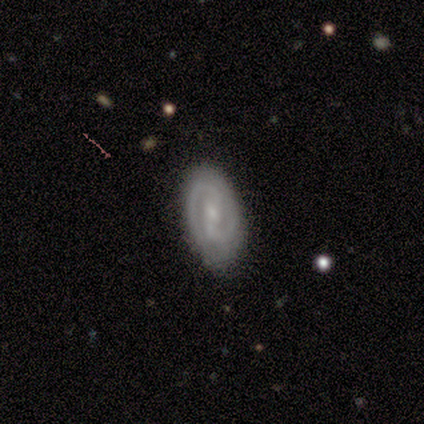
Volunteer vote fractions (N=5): A featured or disk galaxy (80%) with a weak bar (50%), 2 (100%) tight (75%) spiral arms (100%) and a small central bulge (50%).

Vote fractions:
- Smooth or featured? featured or disk: 80% / star or artifact: 20% / smooth: 0%
- Edge-on disk? no: 100% / yes: 0%
- Bar? weak: 50% / strong: 25% / no: 25%
- Spiral arms? yes: 100% / no: 0%
- Spiral winding? tight: 75% / medium: 25% / loose: 0%
- Spiral arm count? 2: 100% / 1: 0% / 3: 0% / 4: 0% / more than 4: 0% / can't tell: 0%
- Bulge size? small: 50% / moderate: 25% / none: 25% / dominant: 0% / large: 0%
- Merging? none: 100% / minor disturbance: 0% / major disturbance: 0% / merger: 0%